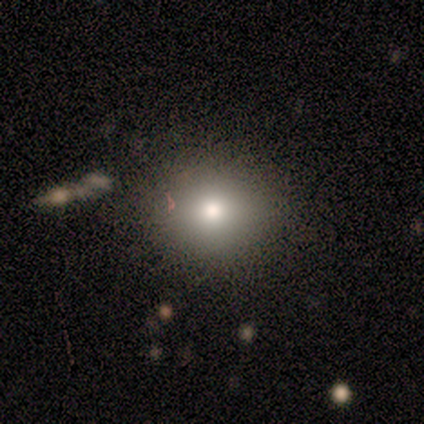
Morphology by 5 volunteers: Overall: smooth (100%). How rounded: round (80%). Merging: none (80%).